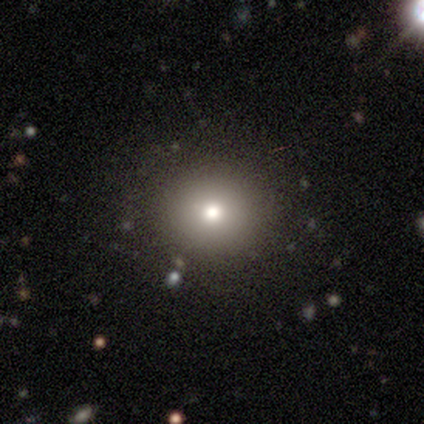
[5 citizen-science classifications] A smooth galaxy with no disk features (80%) that is round (100%). Merging: none (80%).